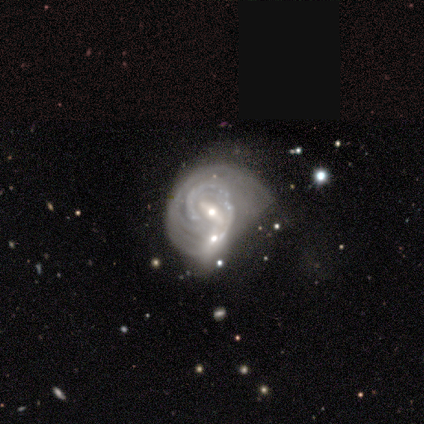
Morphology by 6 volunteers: A featured or disk galaxy (100%) with a strong bar (60%), tight (100%) spiral arms (100%) and a moderate central bulge (40%, tied with small).

Vote fractions:
- Smooth or featured? featured or disk: 100% / smooth: 0% / star or artifact: 0%
- Edge-on disk? no: 83% / yes: 17%
- Bar? strong: 60% / weak: 40% / no: 0%
- Spiral arms? yes: 100% / no: 0%
- Spiral winding? tight: 100% / medium: 0% / loose: 0%
- Spiral arm count? can't tell: 60% / 1: 20% / 3: 20% / 2: 0% / 4: 0% / more than 4: 0%
- Bulge size? moderate: 40% (tied) / small: 40% (tied) / large: 20% / dominant: 0% / none: 0%
- Merging? none: 50% / merger: 33% / minor disturbance: 17% / major disturbance: 0%